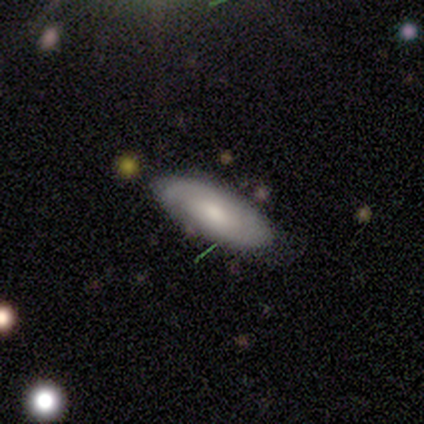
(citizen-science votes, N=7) A smooth galaxy with no disk features (43%, tied with featured or disk) that is in between round and cigar-shaped (67%).

Vote fractions:
- Smooth or featured? smooth: 43% (tied) / featured or disk: 43% (tied) / star or artifact: 14%
- How rounded? in between: 67% / cigar-shaped: 33% / round: 0%
- Merging? none: 100% / minor disturbance: 0% / major disturbance: 0% / merger: 0%